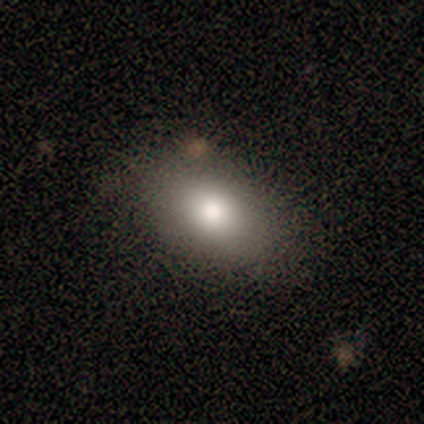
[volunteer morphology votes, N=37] Smooth or featured? smooth (86%)
How rounded? in between (91%)
Merging? none (83%)